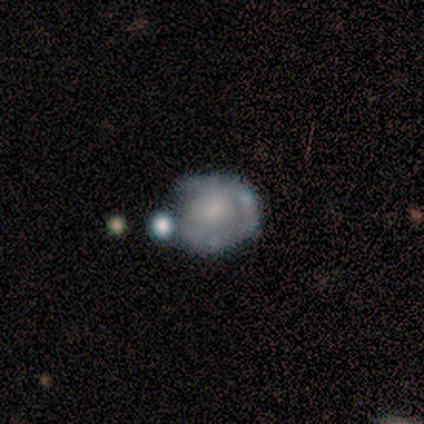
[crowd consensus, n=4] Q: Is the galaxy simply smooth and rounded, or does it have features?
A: smooth — 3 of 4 (75%).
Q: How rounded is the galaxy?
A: round — 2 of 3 (67%).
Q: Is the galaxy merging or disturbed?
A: minor disturbance — 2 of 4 (50%).